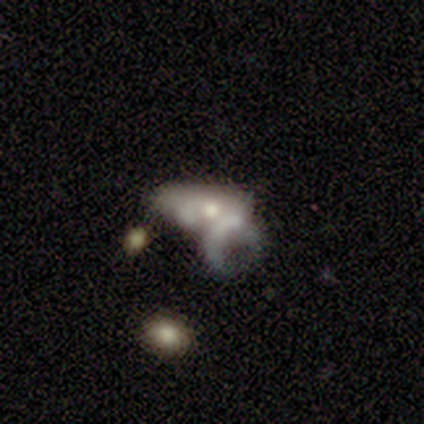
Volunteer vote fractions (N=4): Smooth or featured? 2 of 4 (50%) said smooth. How rounded? 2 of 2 (100%) said in between. Merging? 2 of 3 (67%) said merger.